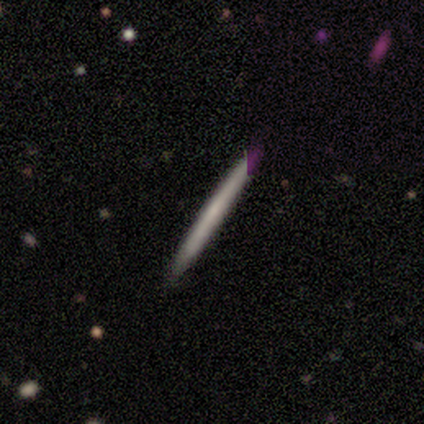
This is likely a smooth galaxy (60%). How rounded: clearly cigar-shaped (100%). Merging: clearly none (100%).